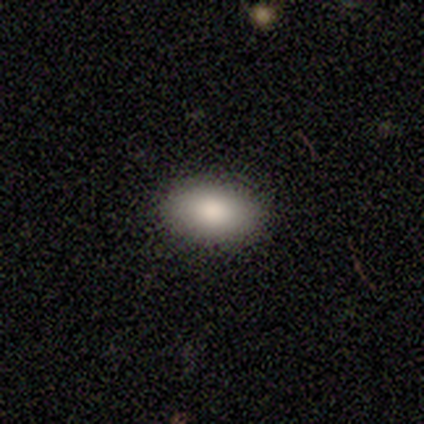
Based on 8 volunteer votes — This is likely a smooth galaxy (75%). How rounded: clearly in between (83%). Merging: clearly none (88%).